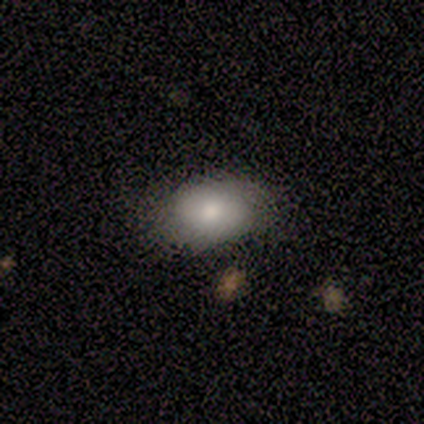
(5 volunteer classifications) Smooth or featured: smooth — 100%
How rounded: in between — 100%
Merging: none — 80% (minor disturbance — 20%)